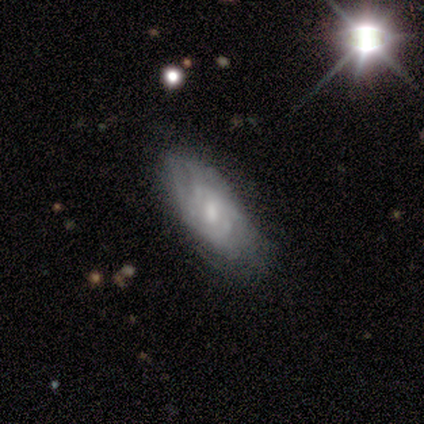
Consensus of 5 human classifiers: Overall: featured or disk (80%). Edge-on disk: no (75%). Bar: weak (67%; strong 33%). Spiral arms: yes (100%). Spiral arm count: 2 (67%; can't tell 33%). Spiral winding: tight (33%, tied with medium and loose). Bulge size: small (67%; moderate 33%). Merging: none (100%).